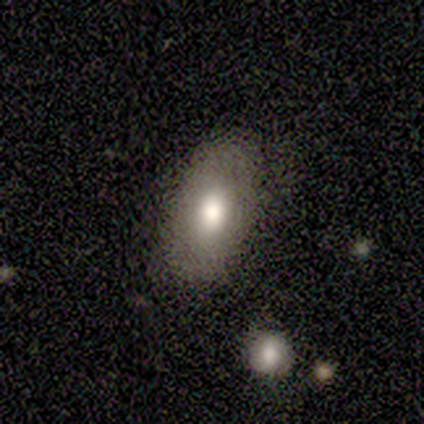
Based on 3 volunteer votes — A smooth galaxy with no disk features (100%) that is in between round and cigar-shaped (100%). Merging: none (100%).